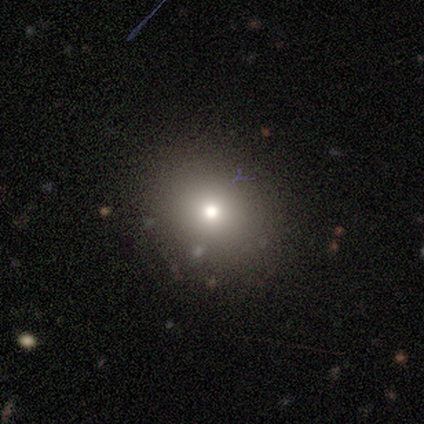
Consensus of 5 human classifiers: A smooth galaxy with no disk features (80%) that is round (100%). Merging: none (80%).